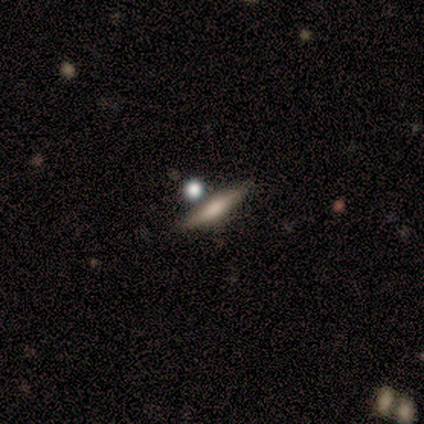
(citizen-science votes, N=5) smooth_or_featured: featured or disk (p=0.60) [alt: smooth p=0.40]
disk_edge_on: yes (p=1.00)
edge_on_bulge: rounded (p=0.67) [alt: none p=0.33]
merging: none (p=0.60) [alt: minor disturbance p=0.40]